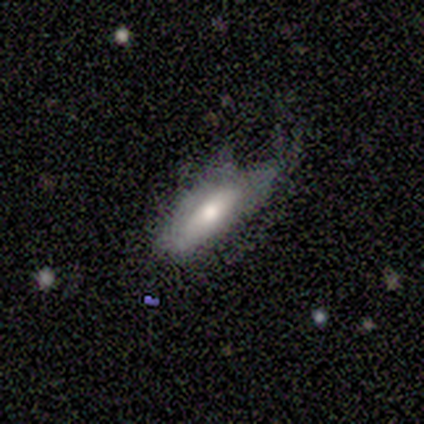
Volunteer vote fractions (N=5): Morphology: type=smooth (80%); roundness=in between (75%); merging=minor disturbance (40%, tied with major disturbance).